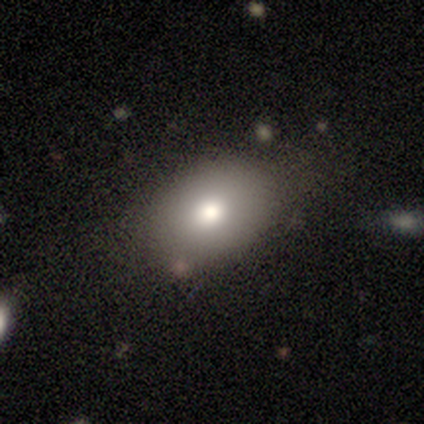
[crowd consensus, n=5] A smooth galaxy with no disk features (80%) that is in between round and cigar-shaped (100%).

Vote fractions:
- Smooth or featured? smooth: 80% / star or artifact: 20% / featured or disk: 0%
- How rounded? in between: 100% / round: 0% / cigar-shaped: 0%
- Merging? none: 75% / minor disturbance: 25% / major disturbance: 0% / merger: 0%